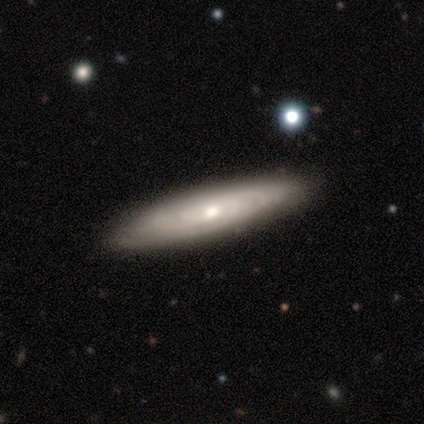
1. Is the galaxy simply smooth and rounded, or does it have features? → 100% featured or disk, 0% smooth, 0% star or artifact.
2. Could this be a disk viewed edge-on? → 100% no, 0% yes.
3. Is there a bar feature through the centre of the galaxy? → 50% strong (tied), 50% no (tied), 0% weak.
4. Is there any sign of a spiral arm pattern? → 100% yes, 0% no.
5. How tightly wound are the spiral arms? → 50% tight (tied), 50% loose (tied), 0% medium.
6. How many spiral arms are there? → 100% can't tell, 0% 1, 0% 2, 0% 3, 0% 4, 0% more than 4.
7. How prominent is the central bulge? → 50% large (tied), 50% small (tied), 0% dominant, 0% moderate, 0% none.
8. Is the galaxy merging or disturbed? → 100% none, 0% minor disturbance, 0% major disturbance, 0% merger.